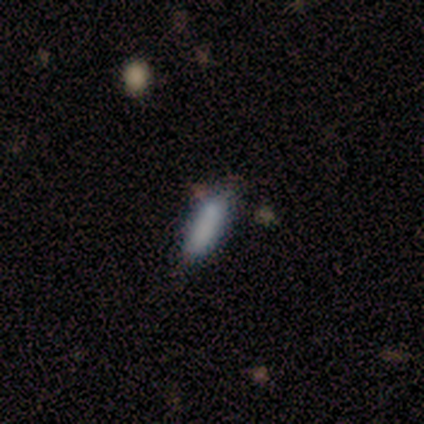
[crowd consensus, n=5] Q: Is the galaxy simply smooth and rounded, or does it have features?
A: smooth — 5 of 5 (100%).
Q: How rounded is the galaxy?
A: in between — 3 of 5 (60%).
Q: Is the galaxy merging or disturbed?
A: none — 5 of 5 (100%).